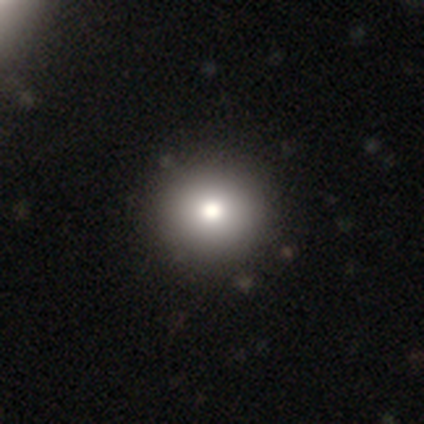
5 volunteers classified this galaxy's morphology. Smooth or featured? 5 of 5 (100%) said smooth. How rounded? 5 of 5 (100%) said round. Merging? 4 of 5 (80%) said none.